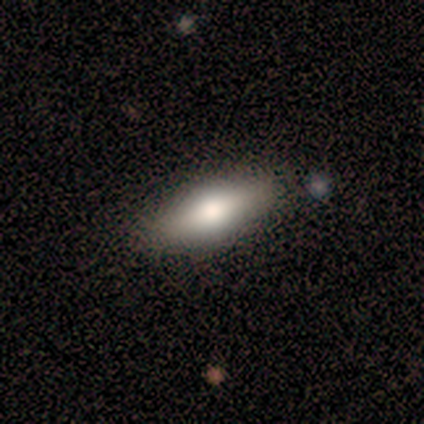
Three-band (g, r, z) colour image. It shows a smooth galaxy with no disk features (80%) that is in between round and cigar-shaped (75%). Merging: none (100%).